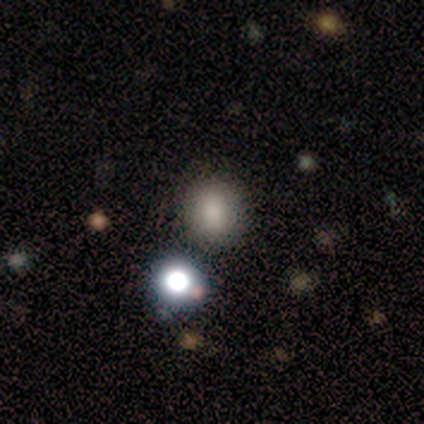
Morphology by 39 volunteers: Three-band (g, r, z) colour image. It shows a smooth galaxy with no disk features (72%) that is round (82%). Merging: none (80%).